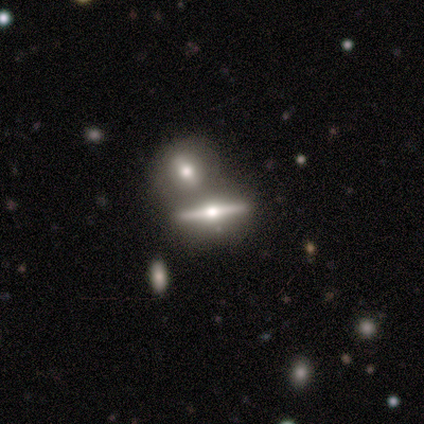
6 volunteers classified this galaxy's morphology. Smooth or featured? featured or disk (83%)
Edge-on disk? yes (80%)
Edge-on bulge? rounded (100%)
Merging? none (50%)